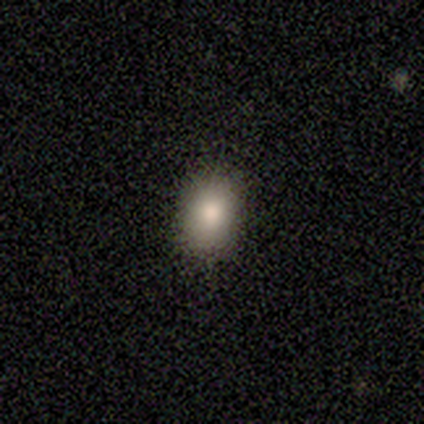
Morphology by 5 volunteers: Smooth or featured: smooth — 80% (star or artifact — 20%)
How rounded: round — 75% (in between — 25%)
Merging: none — 75% (minor disturbance — 25%)